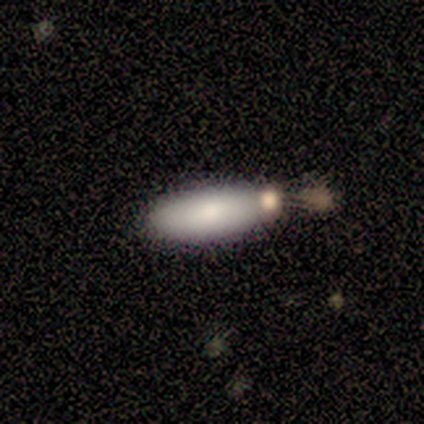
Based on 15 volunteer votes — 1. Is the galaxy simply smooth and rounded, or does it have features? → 87% smooth, 7% featured or disk, 7% star or artifact.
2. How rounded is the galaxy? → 77% in between, 23% cigar-shaped, 0% round.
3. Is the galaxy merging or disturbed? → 57% none, 29% merger, 14% minor disturbance, 0% major disturbance.